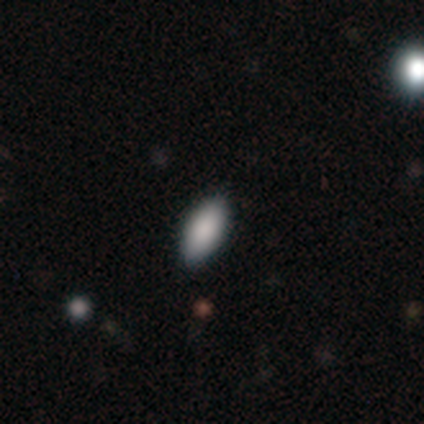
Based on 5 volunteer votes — smooth 100%, featured or disk 0%, star or artifact 0%. Down the decision tree: how rounded — in between (80%); merging — none (100%).